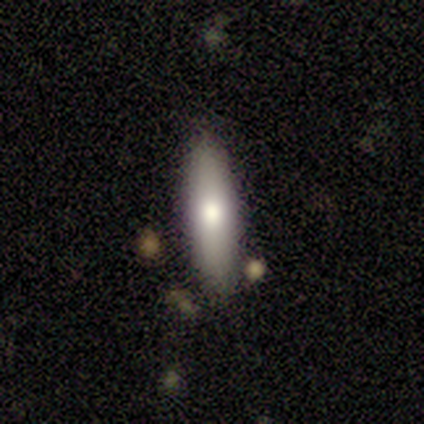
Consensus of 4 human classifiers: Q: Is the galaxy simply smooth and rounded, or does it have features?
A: smooth — 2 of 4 (50%).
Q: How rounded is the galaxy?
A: cigar-shaped — 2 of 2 (100%).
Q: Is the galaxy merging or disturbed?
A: none — 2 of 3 (67%).